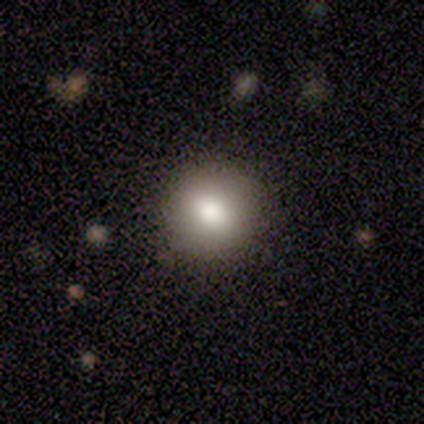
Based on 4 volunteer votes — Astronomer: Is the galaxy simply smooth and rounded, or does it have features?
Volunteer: smooth — 50%, tied with featured or disk at 50%.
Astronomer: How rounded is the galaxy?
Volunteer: round — 100%.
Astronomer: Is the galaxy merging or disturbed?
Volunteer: none — 100%.